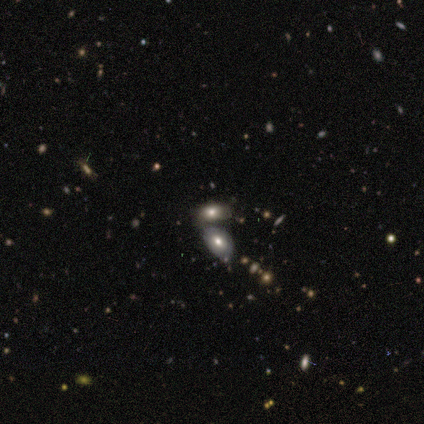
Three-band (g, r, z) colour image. It shows a smooth galaxy with no disk features (60%) that is in between round and cigar-shaped (100%). Merging: merger (60%).